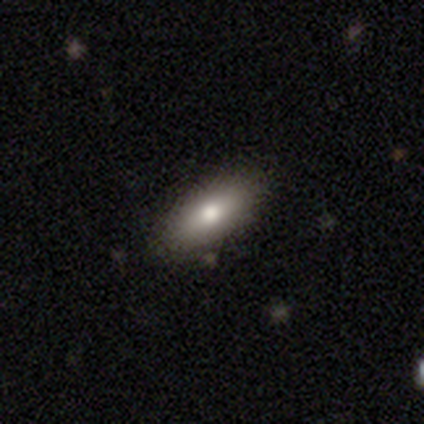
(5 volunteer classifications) This appears to be a smooth galaxy with no disk features (80%) that is in between round and cigar-shaped (75%). Merging: none (60%).